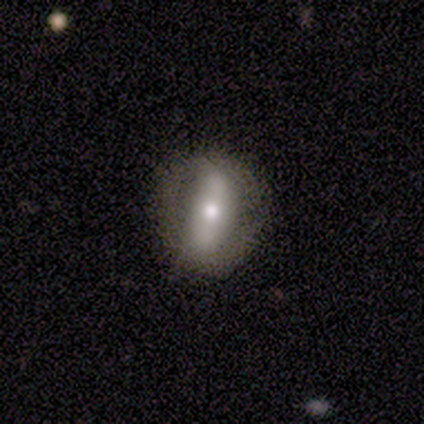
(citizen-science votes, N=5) Volunteers were most divided on "merging": none: 60%, minor disturbance: 20%, major disturbance: 20%, merger: 0%. More confident: edge-on disk — no (100%); spiral arms — no (100%); smooth or featured — featured or disk (80%); bar — strong (75%); bulge size — small (75%).